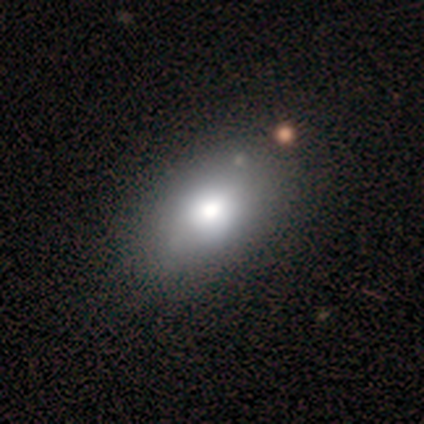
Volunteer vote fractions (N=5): This is likely a smooth galaxy (60%). How rounded: likely in between (67%). Merging: likely none (75%).